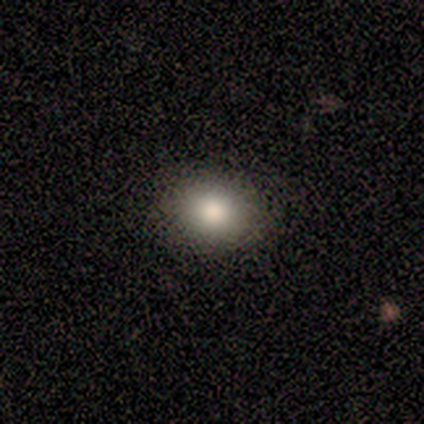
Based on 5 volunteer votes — Q: Smooth or featured?
A: smooth (100%)
Q: How rounded?
A: round (60%); runner-up: in between (40%)
Q: Merging?
A: none (100%)